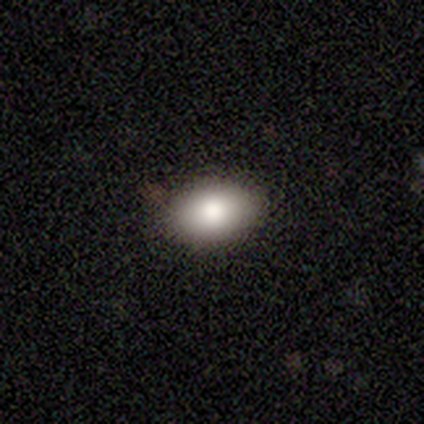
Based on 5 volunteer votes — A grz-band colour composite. It shows a smooth galaxy with no disk features (100%) that is in between round and cigar-shaped (100%). Merging: none (60%).